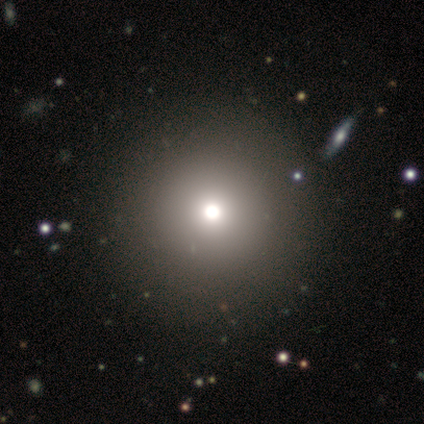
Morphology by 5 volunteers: This is clearly a smooth galaxy (80%). How rounded: clearly round (100%). Merging: clearly none (100%).